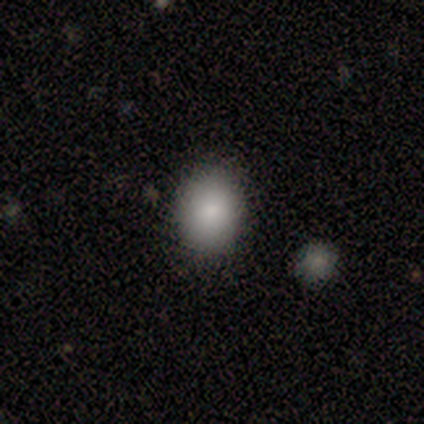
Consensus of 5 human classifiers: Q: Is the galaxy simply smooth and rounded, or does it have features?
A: smooth — 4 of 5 (80%).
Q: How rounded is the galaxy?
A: in between — 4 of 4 (100%).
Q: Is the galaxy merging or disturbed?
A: none — 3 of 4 (75%).